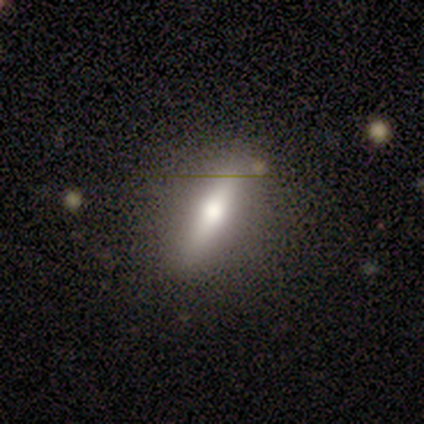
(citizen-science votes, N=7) Smooth or featured?
  - smooth: 57% *
  - featured or disk: 29%
  - star or artifact: 14%
How rounded?
  - in between: 50% * (tied)
  - cigar-shaped: 50% * (tied)
  - round: 0%
Merging?
  - none: 83% *
  - minor disturbance: 17%
  - major disturbance: 0%
  - merger: 0%